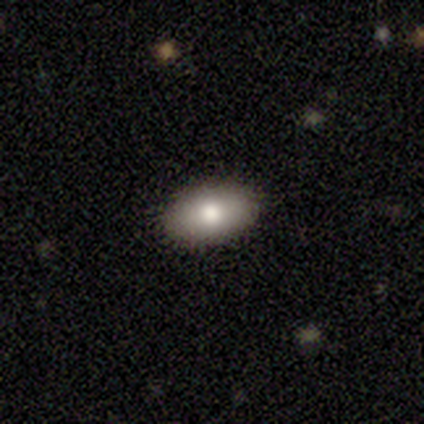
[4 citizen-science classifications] smooth-or-featured: smooth: 100% | featured or disk: 0% | star or artifact: 0%
  how-rounded: in between: 100% | round: 0% | cigar-shaped: 0%
  merging: none: 100% | minor disturbance: 0% | major disturbance: 0% | merger: 0%